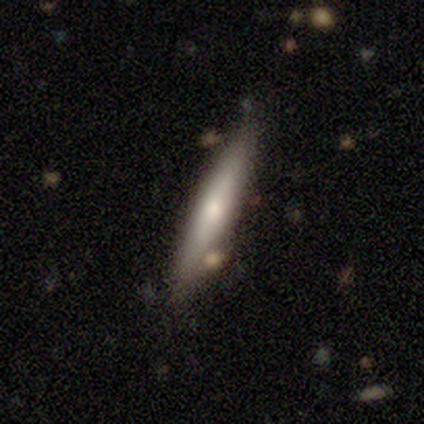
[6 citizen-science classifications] Morphology: type=featured or disk (67%); edge-on=yes (75%); edge-on bulge=rounded (100%); merging=none (83%).